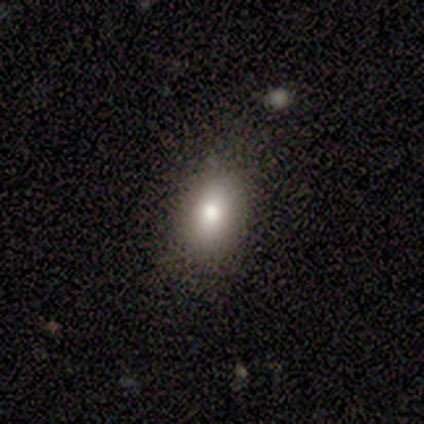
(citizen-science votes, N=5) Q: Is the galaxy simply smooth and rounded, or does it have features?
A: smooth — 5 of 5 (100%).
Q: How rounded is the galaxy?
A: in between — 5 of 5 (100%).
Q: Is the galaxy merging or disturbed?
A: none — 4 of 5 (80%).